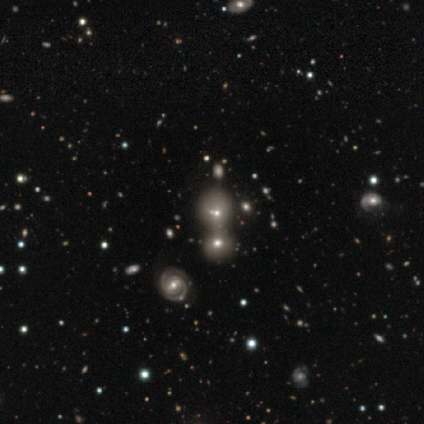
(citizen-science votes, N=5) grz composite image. It shows a featured or disk galaxy (60%) with a weak bar (50%, tied with no), 2 (50%, tied with 4) tight (100%) spiral arms (100%) and a moderate central bulge (100%). Merging: merger (50%).